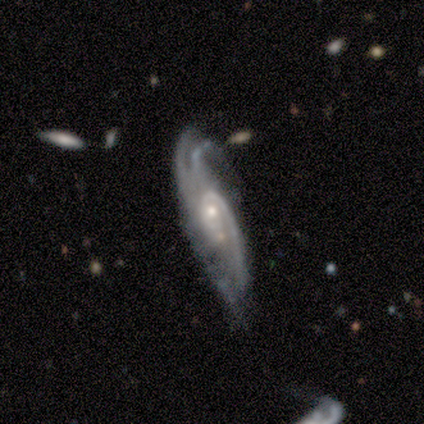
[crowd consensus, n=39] A featured or disk galaxy (87%) with no bar (72%), 3 (36%) medium (46%) spiral arms (97%) and a small central bulge (62%).

Vote fractions:
- Smooth or featured? featured or disk: 87% / smooth: 13% / star or artifact: 0%
- Edge-on disk? no: 85% / yes: 15%
- Bar? no: 72% / weak: 24% / strong: 3%
- Spiral arms? yes: 97% / no: 3%
- Spiral winding? medium: 46% / tight: 39% / loose: 14%
- Spiral arm count? 3: 36% / can't tell: 25% / 2: 21% / 4: 14% / 1: 4% / more than 4: 0%
- Bulge size? small: 62% / moderate: 38% / dominant: 0% / large: 0% / none: 0%
- Merging? minor disturbance: 41% / none: 33% / major disturbance: 15% / merger: 10%